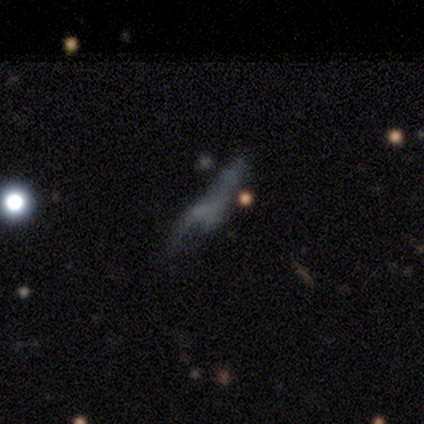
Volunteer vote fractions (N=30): smooth_or_featured: featured or disk (p=0.57) [alt: star or artifact p=0.27]
disk_edge_on: no (p=0.88) [alt: yes p=0.12]
bar: no (p=0.93) [alt: weak p=0.07]
has_spiral_arms: no (p=0.87) [alt: yes p=0.13]
bulge_size: none (p=0.73) [alt: small p=0.20]
merging: major disturbance (p=0.41) [alt: merger p=0.23]